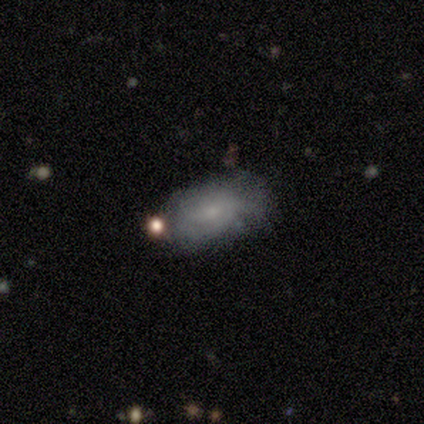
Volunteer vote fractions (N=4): Overall: smooth (75%). How rounded: in between (100%). Merging: none (50%; minor disturbance 25%).